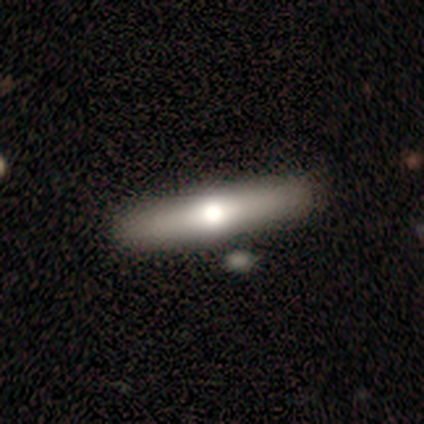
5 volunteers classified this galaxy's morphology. smooth-or-featured: smooth: 80% | featured or disk: 20% | star or artifact: 0%
  how-rounded: cigar-shaped: 75% | in between: 25% | round: 0%
  merging: none: 60% | minor disturbance: 20% | merger: 20% | major disturbance: 0%